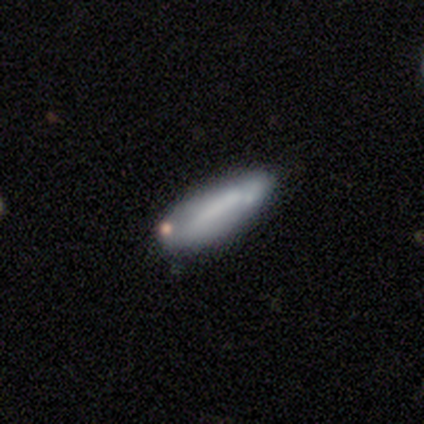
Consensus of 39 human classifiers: Q: Smooth or featured?
A: smooth (56%); runner-up: featured or disk (38%)
Q: How rounded?
A: in between (50%); tied with: cigar-shaped (50%)
Q: Merging?
A: none (57%); runner-up: minor disturbance (27%)